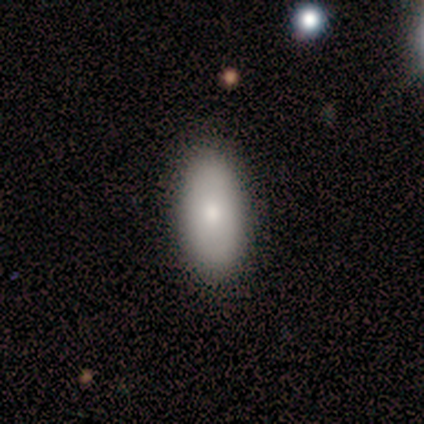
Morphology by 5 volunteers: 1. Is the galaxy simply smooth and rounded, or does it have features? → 100% smooth, 0% featured or disk, 0% star or artifact.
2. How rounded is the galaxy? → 100% in between, 0% round, 0% cigar-shaped.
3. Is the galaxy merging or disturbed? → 100% none, 0% minor disturbance, 0% major disturbance, 0% merger.